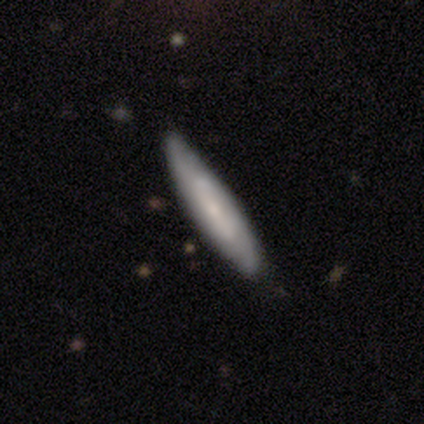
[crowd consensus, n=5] A smooth galaxy with no disk features (40%, tied with featured or disk) that is cigar-shaped (100%).

Vote fractions:
- Smooth or featured? smooth: 40% (tied) / featured or disk: 40% (tied) / star or artifact: 20%
- How rounded? cigar-shaped: 100% / round: 0% / in between: 0%
- Merging? none: 100% / minor disturbance: 0% / major disturbance: 0% / merger: 0%